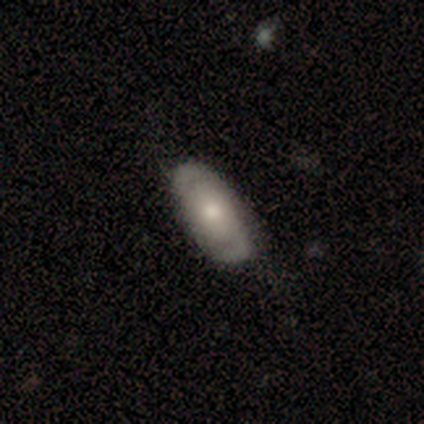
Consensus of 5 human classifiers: Volunteers were most divided on "bulge size": large: 50%, moderate: 25%, small: 25%, dominant: 0%, none: 0%. More confident: edge-on disk — no (100%); smooth or featured — featured or disk (80%); merging — none (80%); bar — no (75%); spiral arms — yes (75%); spiral winding — loose (67%); spiral arm count — 2 (67%).